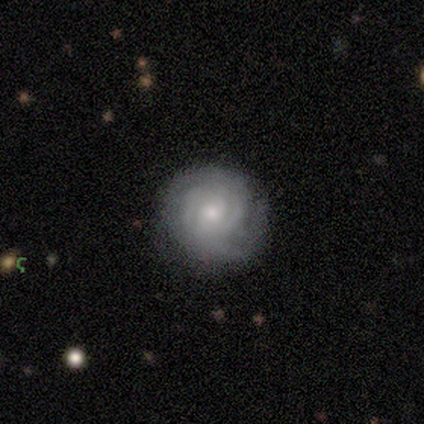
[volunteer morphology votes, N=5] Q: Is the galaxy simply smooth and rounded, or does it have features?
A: featured or disk — 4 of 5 (80%).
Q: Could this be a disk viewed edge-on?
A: no — 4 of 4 (100%).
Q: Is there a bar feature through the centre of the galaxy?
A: weak — 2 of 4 (50%, tied with no).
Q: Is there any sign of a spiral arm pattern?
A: yes — 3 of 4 (75%).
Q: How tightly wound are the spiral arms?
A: tight — 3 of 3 (100%).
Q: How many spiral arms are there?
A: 3 — 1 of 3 (33%, tied with more than 4 and can't tell).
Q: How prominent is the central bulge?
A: moderate — 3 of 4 (75%).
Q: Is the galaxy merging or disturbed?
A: none — 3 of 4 (75%).